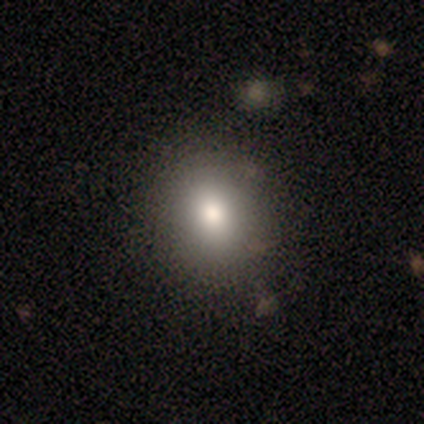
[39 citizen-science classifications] Morphology: type=smooth (69%); roundness=round (56%); merging=none (79%).